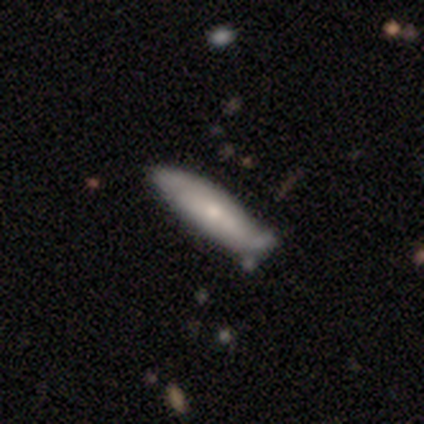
Volunteers were most divided on "smooth or featured": smooth: 60%, featured or disk: 40%, star or artifact: 0%. More confident: how rounded — in between (67%); merging — minor disturbance (60%).